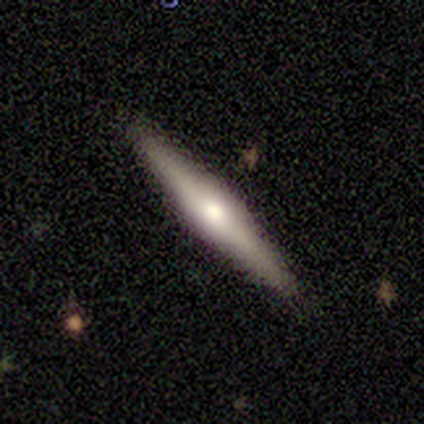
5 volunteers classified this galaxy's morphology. smooth-or-featured: featured or disk: 80% | smooth: 20% | star or artifact: 0%
  disk-edge-on: yes: 100% | no: 0%
    edge-on-bulge: rounded: 75% | boxy: 25% | none: 0%
  merging: none: 100% | minor disturbance: 0% | major disturbance: 0% | merger: 0%